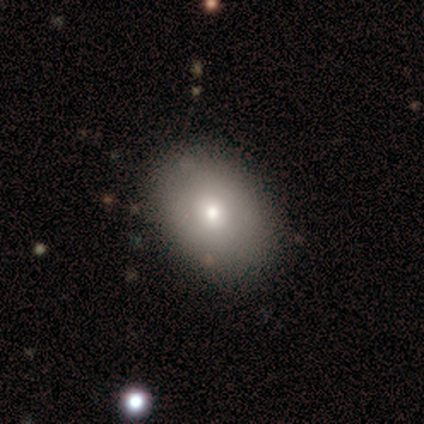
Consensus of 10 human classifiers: Morphology: type=smooth (80%); roundness=in between (88%); merging=none (100%).